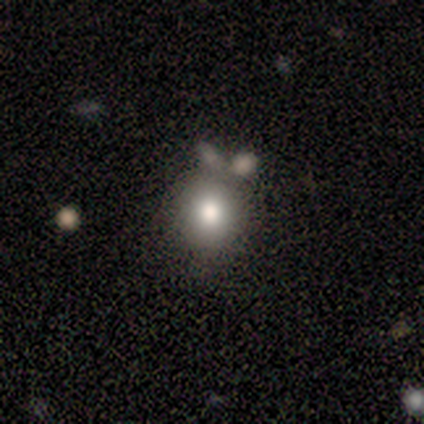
smooth_or_featured: smooth (p=0.86) [alt: featured or disk p=0.07]
how_rounded: round (p=0.83) [alt: in between p=0.17]
merging: none (p=0.54) [alt: minor disturbance p=0.23]